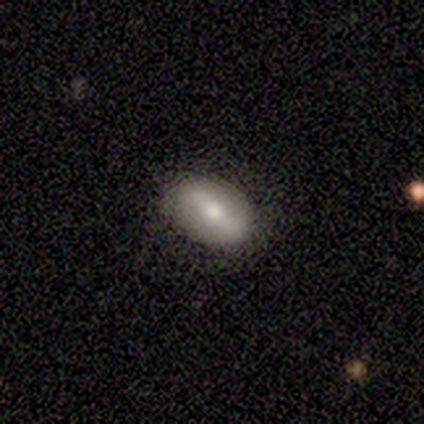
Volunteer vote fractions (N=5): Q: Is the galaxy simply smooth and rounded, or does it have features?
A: featured or disk — 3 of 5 (60%).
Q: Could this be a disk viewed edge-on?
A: no — 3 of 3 (100%).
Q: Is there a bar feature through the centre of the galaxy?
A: strong — 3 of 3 (100%).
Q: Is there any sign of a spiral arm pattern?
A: yes — 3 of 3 (100%).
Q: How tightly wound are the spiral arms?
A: medium — 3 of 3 (100%).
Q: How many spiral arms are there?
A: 2 — 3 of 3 (100%).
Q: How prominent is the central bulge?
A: moderate — 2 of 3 (67%).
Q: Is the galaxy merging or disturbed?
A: none — 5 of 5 (100%).